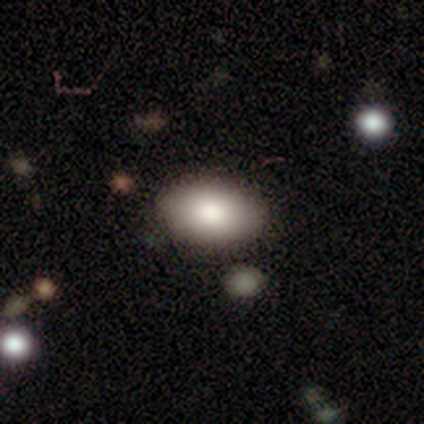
A smooth galaxy with no disk features (74%) that is in between round and cigar-shaped (96%).

Vote fractions:
- Smooth or featured? smooth: 74% / featured or disk: 18% / star or artifact: 8%
- How rounded? in between: 96% / round: 4% / cigar-shaped: 0%
- Merging? none: 74% / minor disturbance: 20% / major disturbance: 6% / merger: 0%